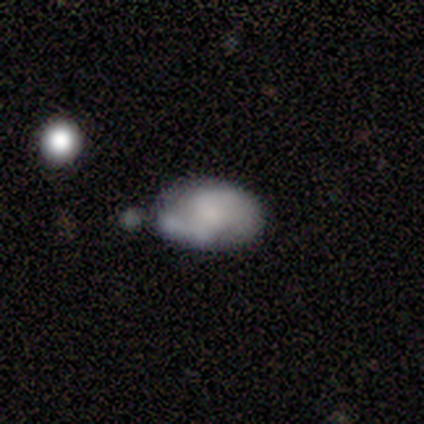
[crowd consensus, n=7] Morphology: type=smooth (43%, tied with featured or disk); roundness=in between (67%); merging=merger (50%).